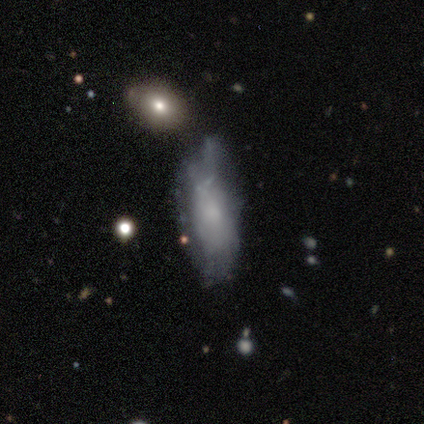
A featured or disk galaxy (48%) with no bar (95%), no spiral arms (68%) and a small central bulge (47%).

Vote fractions:
- Smooth or featured? featured or disk: 48% / smooth: 45% / star or artifact: 7%
- Edge-on disk? no: 95% / yes: 5%
- Bar? no: 95% / weak: 5% / strong: 0%
- Spiral arms? no: 68% / yes: 32%
- Bulge size? small: 47% / none: 26% / moderate: 21% / large: 5% / dominant: 0%
- Merging? minor disturbance: 56% / none: 21% / major disturbance: 18% / merger: 5%